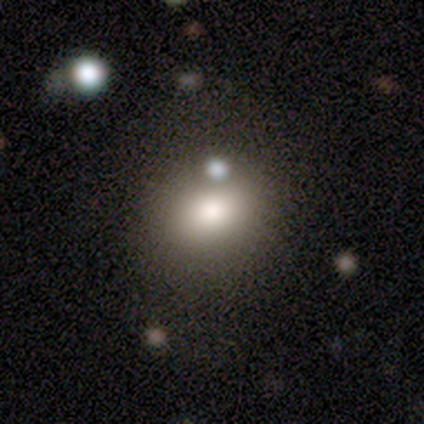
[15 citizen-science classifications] smooth-or-featured: smooth: 87% | star or artifact: 13% | featured or disk: 0%
  how-rounded: in between: 54% | round: 46% | cigar-shaped: 0%
  merging: none: 62% | minor disturbance: 38% | major disturbance: 0% | merger: 0%